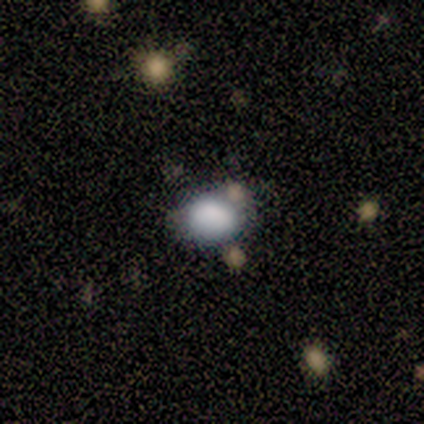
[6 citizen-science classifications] Smooth or featured?
  - smooth: 100% *
  - featured or disk: 0%
  - star or artifact: 0%
How rounded?
  - in between: 67% *
  - round: 33%
  - cigar-shaped: 0%
Merging?
  - none: 67% *
  - minor disturbance: 17%
  - merger: 17%
  - major disturbance: 0%